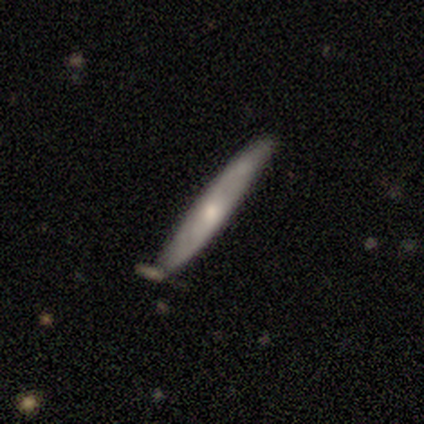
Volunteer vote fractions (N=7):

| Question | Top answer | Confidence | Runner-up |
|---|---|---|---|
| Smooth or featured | featured or disk | 86% | smooth (14%) |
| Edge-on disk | yes | 67% | no (33%) |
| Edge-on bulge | rounded | 75% | none (25%) |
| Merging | none | 100% | — |